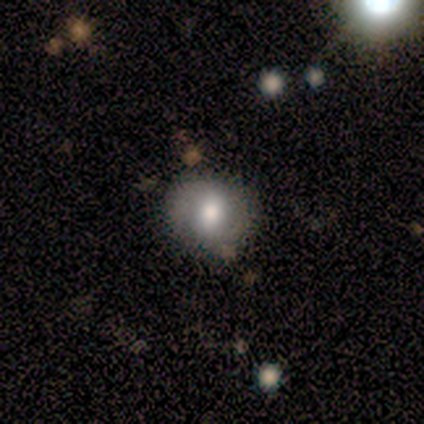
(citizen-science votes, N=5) Smooth or featured?
  - smooth: 80% *
  - featured or disk: 20%
  - star or artifact: 0%
How rounded?
  - in between: 75% *
  - round: 25%
  - cigar-shaped: 0%
Merging?
  - none: 80% *
  - minor disturbance: 20%
  - major disturbance: 0%
  - merger: 0%